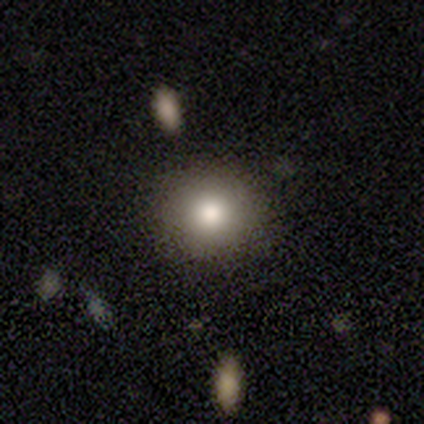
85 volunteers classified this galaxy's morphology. This appears to be a smooth galaxy with no disk features (76%) that is round (92%). Merging: none (91%).